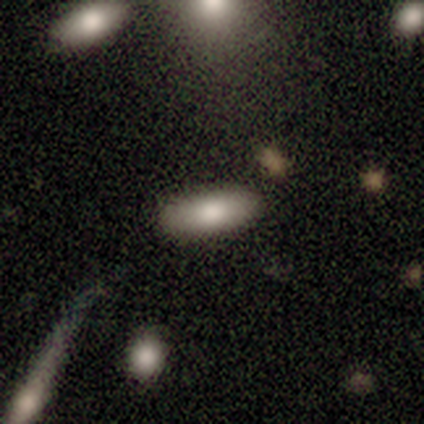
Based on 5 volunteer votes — A smooth galaxy with no disk features (80%) that is in between round and cigar-shaped (100%). Merging: none (100%).